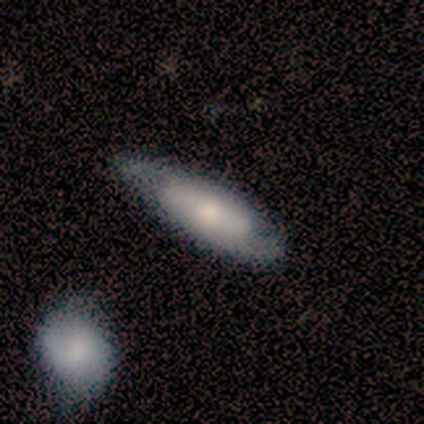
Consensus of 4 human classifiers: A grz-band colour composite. It shows a featured or disk galaxy (75%) viewed edge-on (67%) with no central bulge (50%, tied with rounded). Merging: none (50%, tied with minor disturbance).